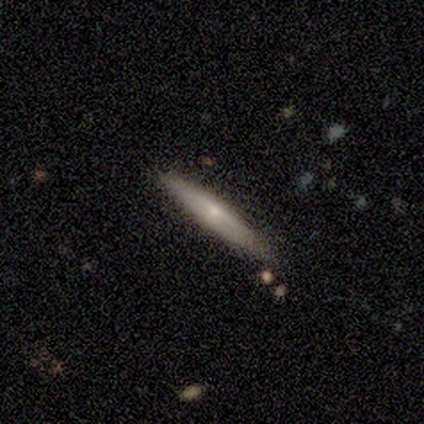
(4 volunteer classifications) smooth_or_featured: smooth (p=0.50) [tied with: featured or disk p=0.50]
how_rounded: cigar-shaped (p=1.00)
merging: none (p=1.00)